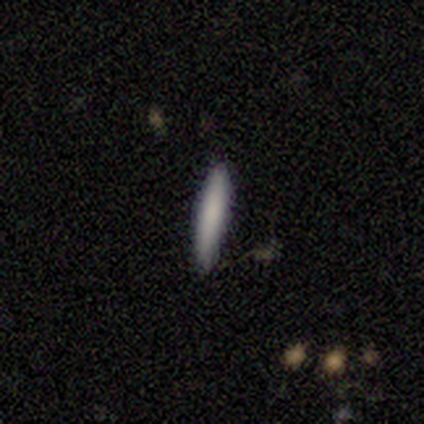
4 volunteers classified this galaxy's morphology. A smooth galaxy with no disk features (50%, tied with featured or disk) that is cigar-shaped (100%). Merging: none (100%).